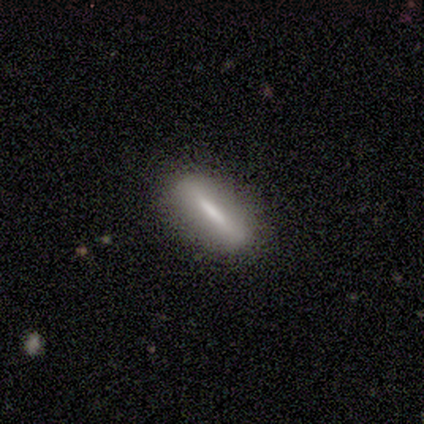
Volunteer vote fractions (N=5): smooth 80%, featured or disk 20%, star or artifact 0%. Down the decision tree: how rounded — cigar-shaped (100%); merging — none (100%).